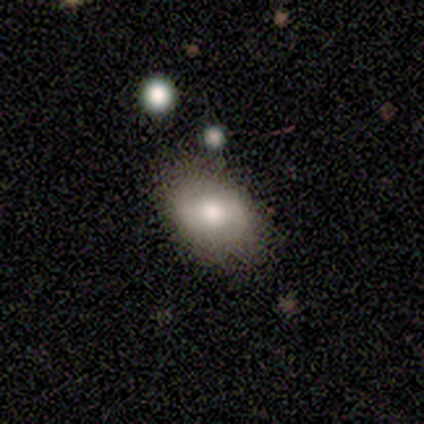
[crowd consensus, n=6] This is possibly a smooth galaxy (50%). How rounded: clearly in between (100%). Merging: clearly none (80%).